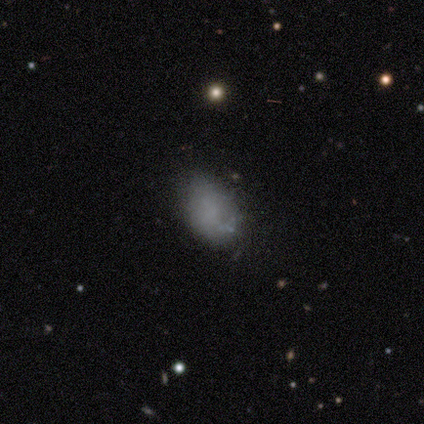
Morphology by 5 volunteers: smooth 60%, featured or disk 20%, star or artifact 20%. Down the decision tree: how rounded — in between (100%); merging — none (50%, tied with minor disturbance).